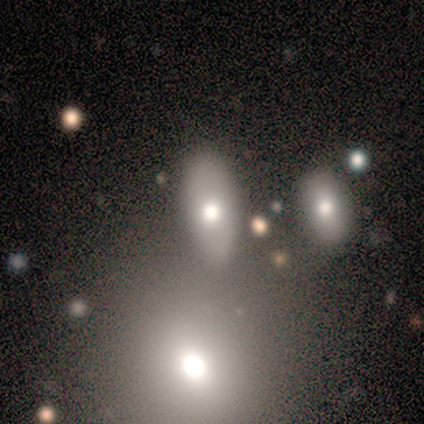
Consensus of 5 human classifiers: A smooth galaxy with no disk features (80%) that is in between round and cigar-shaped (75%).

Vote fractions:
- Smooth or featured? smooth: 80% / star or artifact: 20% / featured or disk: 0%
- How rounded? in between: 75% / round: 25% / cigar-shaped: 0%
- Merging? merger: 75% / none: 25% / minor disturbance: 0% / major disturbance: 0%